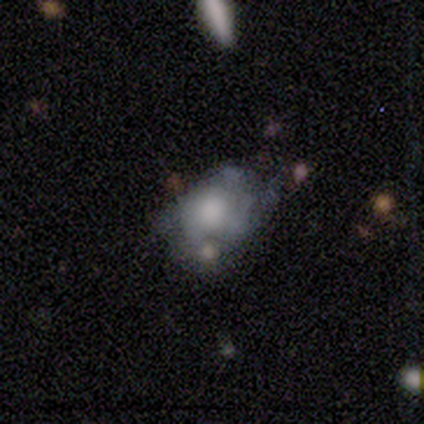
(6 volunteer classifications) Volunteers were most divided on "merging": minor disturbance: 50%, merger: 33%, major disturbance: 17%, none: 0%. More confident: how rounded — in between (100%); smooth or featured — smooth (83%).